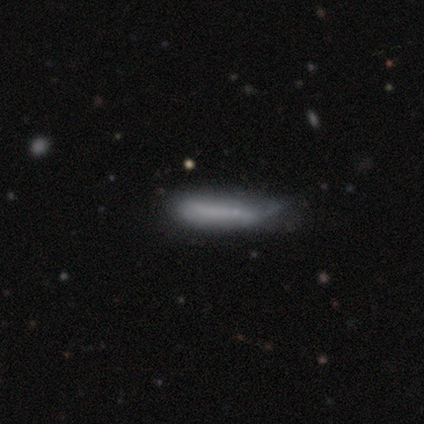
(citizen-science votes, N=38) Smooth or featured? 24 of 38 (63%) said smooth. How rounded? 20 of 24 (83%) said cigar-shaped. Merging? 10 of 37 (27%) said minor disturbance.